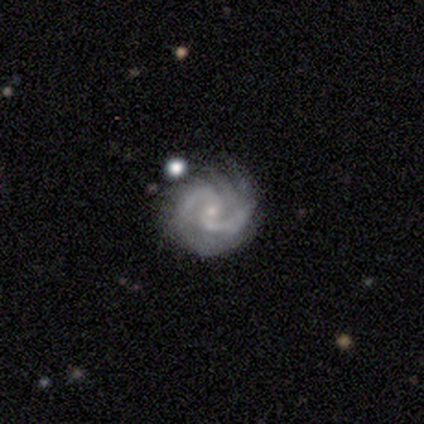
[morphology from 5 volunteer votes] smooth_or_featured: featured or disk (p=0.80) [alt: smooth p=0.20]
disk_edge_on: no (p=1.00)
bar: no (p=0.75) [alt: strong p=0.25]
has_spiral_arms: yes (p=1.00)
spiral_winding: tight (p=0.50) [tied with: medium p=0.50]
spiral_arm_count: 2 (p=0.50) [alt: 4 p=0.25]
bulge_size: small (p=1.00)
merging: none (p=0.80) [alt: major disturbance p=0.20]